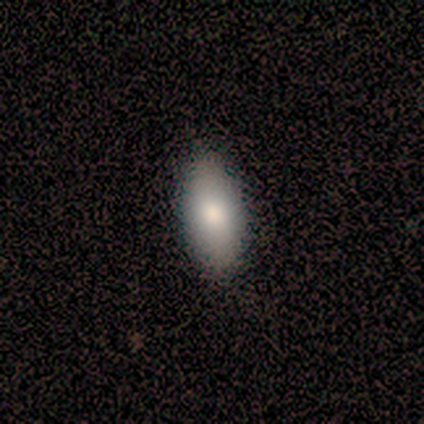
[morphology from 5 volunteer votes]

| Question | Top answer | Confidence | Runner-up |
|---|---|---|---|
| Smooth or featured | smooth | 60% | featured or disk (20%) |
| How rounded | in between | 100% | — |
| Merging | none | 75% | minor disturbance (25%) |